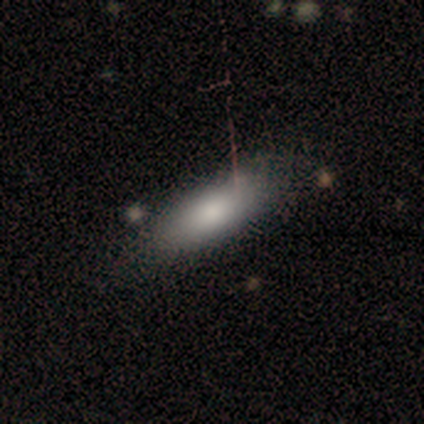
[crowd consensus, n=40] Smooth or featured? 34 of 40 (85%) said smooth. How rounded? 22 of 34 (65%) said in between. Merging? 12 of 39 (31%) said none.